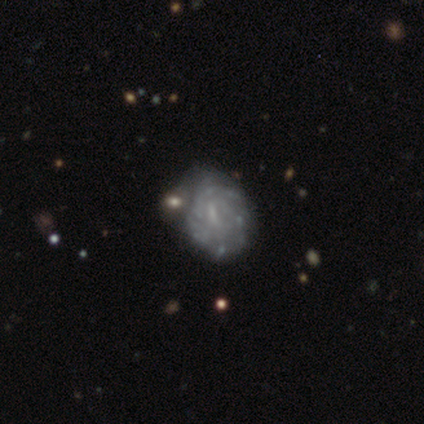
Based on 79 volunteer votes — Overall: featured or disk (89%). Edge-on disk: no (100%). Bar: weak (49%; no 41%). Spiral arms: yes (91%). Spiral arm count: can't tell (59%; more than 4 22%). Spiral winding: tight (62%; medium 30%). Bulge size: none (56%; small 40%). Merging: none (21%, tied with merger).